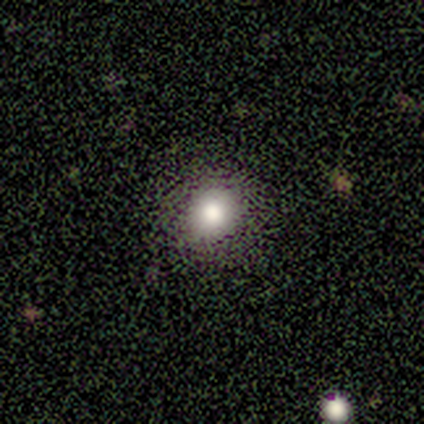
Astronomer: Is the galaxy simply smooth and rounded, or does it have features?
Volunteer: smooth — 60% (runner-up: star or artifact, 40%).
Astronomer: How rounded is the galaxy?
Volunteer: round — 100%.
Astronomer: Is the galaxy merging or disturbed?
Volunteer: none — 100%.